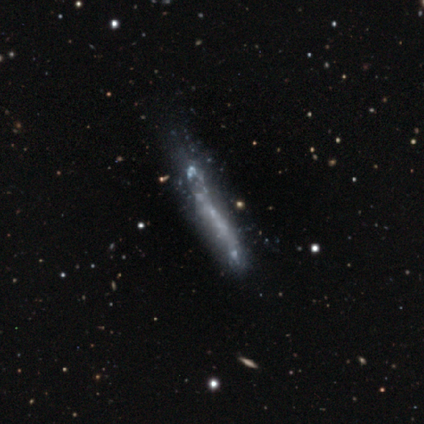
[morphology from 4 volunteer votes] Smooth or featured? 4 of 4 (100%) said featured or disk. Edge-on disk? 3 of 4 (75%) said yes. Edge-on bulge? 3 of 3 (100%) said none. Merging? 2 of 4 (50%) said none.